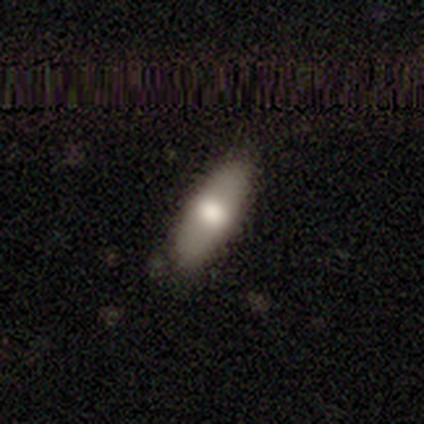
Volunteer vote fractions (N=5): Smooth or featured? smooth (60%)
How rounded? in between (67%)
Merging? none (75%)